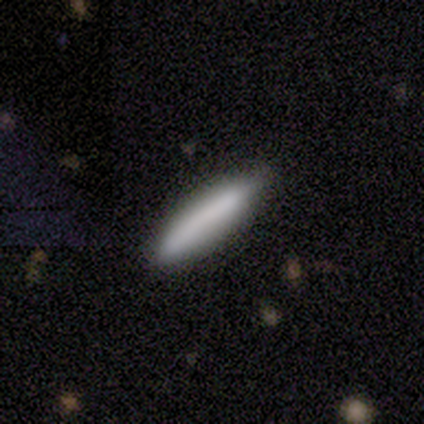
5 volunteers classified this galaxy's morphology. smooth-or-featured: smooth: 80% | featured or disk: 20% | star or artifact: 0%
  how-rounded: cigar-shaped: 75% | in between: 25% | round: 0%
  merging: none: 80% | minor disturbance: 20% | major disturbance: 0% | merger: 0%